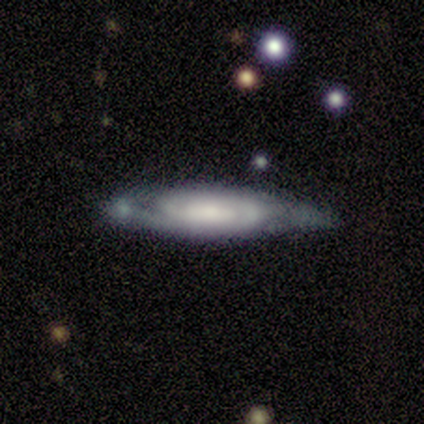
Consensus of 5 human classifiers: A featured or disk galaxy (80%) with no bar (100%), 2 (75%) medium (75%) spiral arms (100%) and a moderate central bulge (50%). Merging: none (80%).